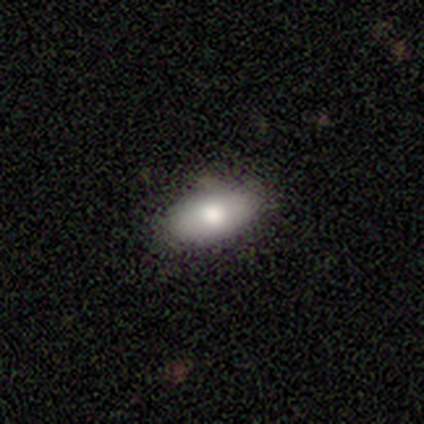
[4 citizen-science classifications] This is clearly a smooth galaxy (100%). How rounded: likely in between (75%). Merging: possibly none (50%, tied with minor disturbance).